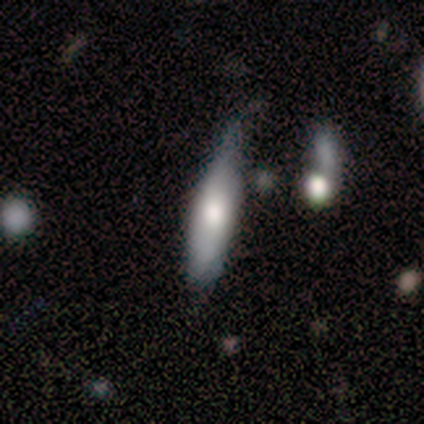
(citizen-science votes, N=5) Overall: smooth (60%; featured or disk 20%). How rounded: cigar-shaped (67%; in between 33%). Merging: none (75%).